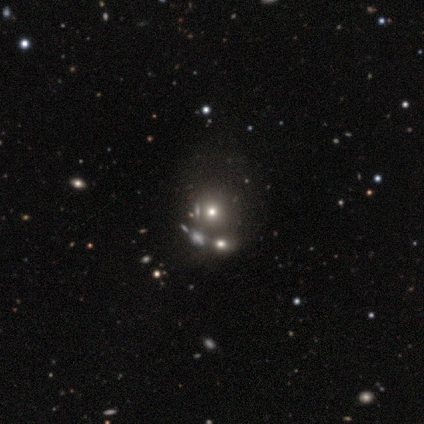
Morphology: type=featured or disk (67%); edge-on=no (100%); bar=no (100%); spiral arms=no (100%); bulge=moderate (100%); merging=none (67%).